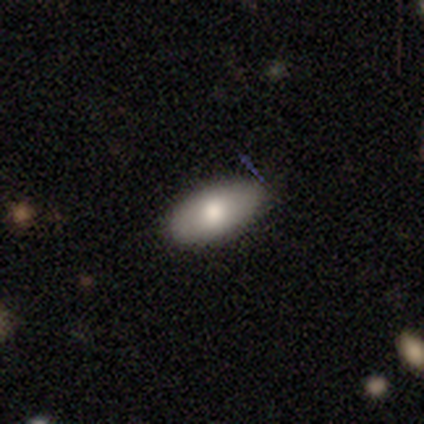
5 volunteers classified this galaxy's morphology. Smooth or featured: smooth — 80% (featured or disk — 20%)
How rounded: in between — 100%
Merging: none — 100%